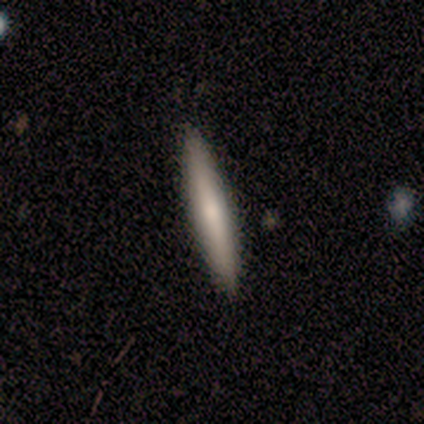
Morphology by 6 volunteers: Overall: smooth (50%, tied with featured or disk). How rounded: cigar-shaped (100%). Merging: none (83%).